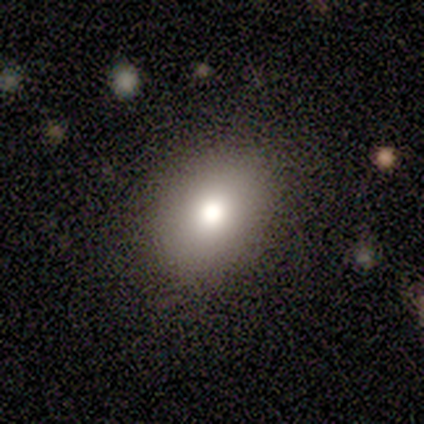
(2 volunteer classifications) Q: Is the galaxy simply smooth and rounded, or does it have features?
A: smooth — 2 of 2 (100%).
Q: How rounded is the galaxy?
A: round — 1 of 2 (50%, tied with in between).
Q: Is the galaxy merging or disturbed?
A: none — 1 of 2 (50%, tied with minor disturbance).